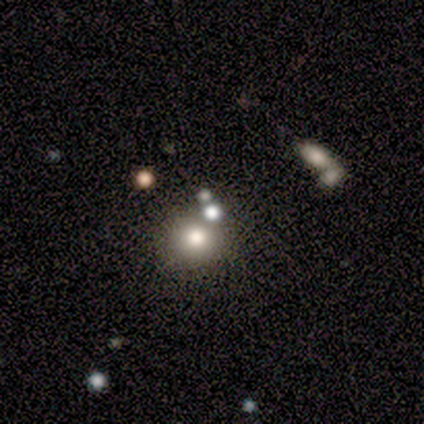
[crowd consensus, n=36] Smooth or featured? 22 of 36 (61%) said smooth. How rounded? 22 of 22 (100%) said round. Merging? 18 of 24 (75%) said none.